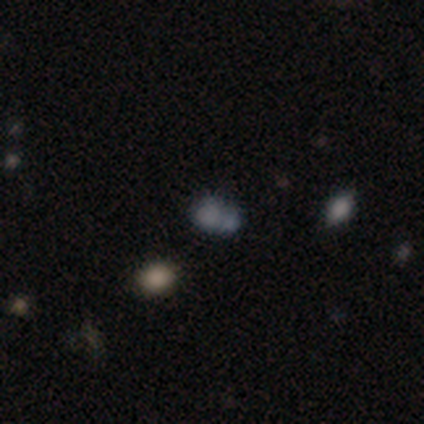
Overall: smooth (73%). How rounded: round (50%, tied with in between). Merging: merger (67%; none 33%).